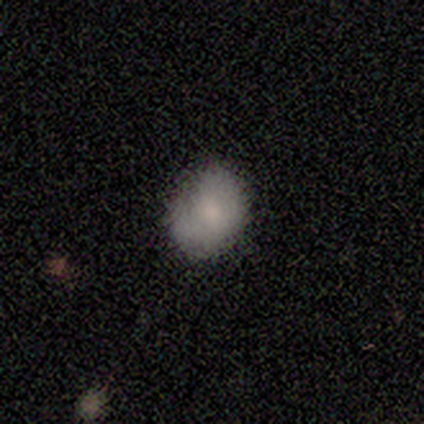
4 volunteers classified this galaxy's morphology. Volunteers were most divided on "merging": none: 67%, minor disturbance: 33%, major disturbance: 0%, merger: 0%. More confident: how rounded — round (100%); smooth or featured — smooth (75%).